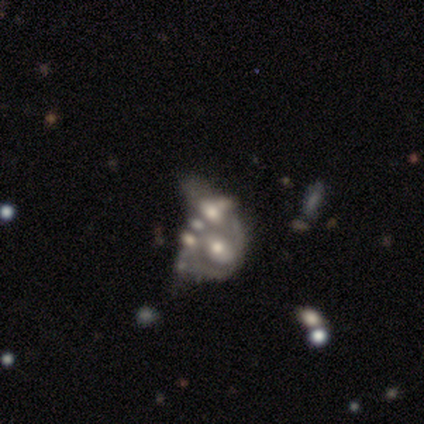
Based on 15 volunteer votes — Morphology: type=featured or disk (80%); edge-on=no (100%); bar=no (83%); spiral arms=no (75%); bulge=moderate (58%); merging=merger (50%).